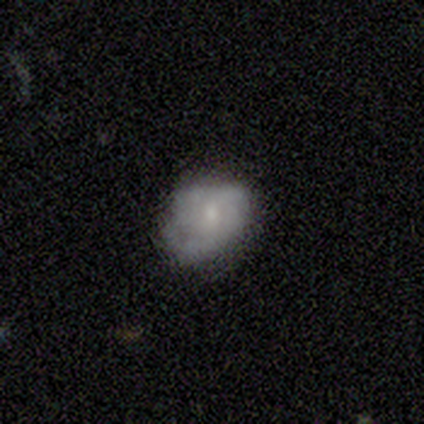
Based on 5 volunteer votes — Smooth or featured: smooth — 80% (featured or disk — 20%)
How rounded: in between — 75% (round — 25%)
Merging: none — 60% (minor disturbance — 40%)